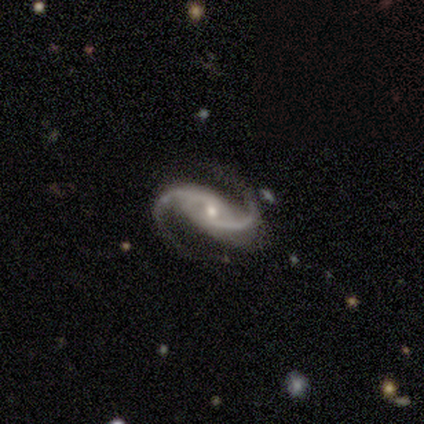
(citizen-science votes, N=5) Q: Smooth or featured?
A: featured or disk (100%)
Q: Edge-on disk?
A: no (100%)
Q: Bar?
A: weak (80%); runner-up: no (20%)
Q: Spiral arms?
A: yes (100%)
Q: Spiral winding?
A: medium (60%); runner-up: tight (20%)
Q: Spiral arm count?
A: 2 (100%)
Q: Bulge size?
A: small (60%); runner-up: moderate (40%)
Q: Merging?
A: none (80%); runner-up: major disturbance (20%)